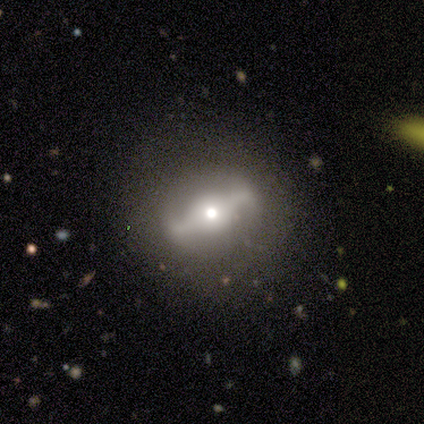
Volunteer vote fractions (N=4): smooth_or_featured: smooth (p=0.50) [tied with: featured or disk p=0.50]
how_rounded: round (p=1.00)
merging: none (p=1.00)